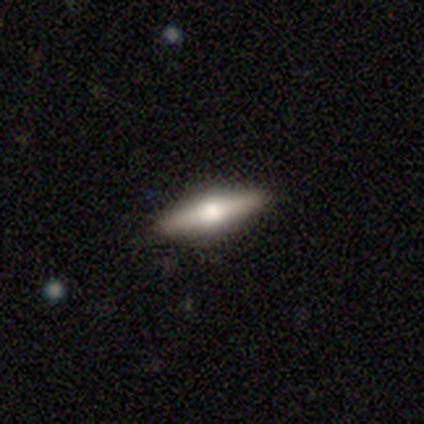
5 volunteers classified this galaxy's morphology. smooth_or_featured: featured or disk (p=0.60) [alt: smooth p=0.40]
disk_edge_on: yes (p=1.00)
edge_on_bulge: rounded (p=1.00)
merging: none (p=1.00)